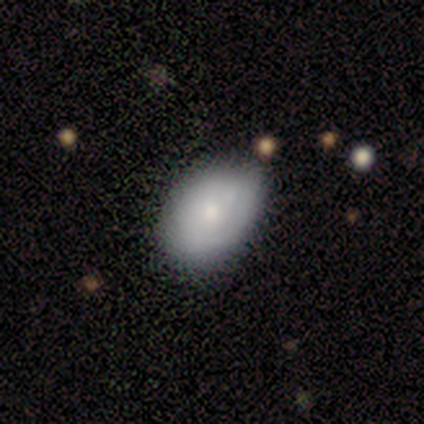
Smooth or featured? 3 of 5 (60%) said featured or disk. Edge-on disk? 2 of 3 (67%) said no. Bar? 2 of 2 (100%) said no. Spiral arms? 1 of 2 (50%, tied with no) said yes. Spiral winding? 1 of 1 (100%) said loose. Spiral arm count? 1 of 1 (100%) said can't tell. Bulge size? 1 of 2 (50%, tied with small) said moderate. Merging? 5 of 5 (100%) said none.